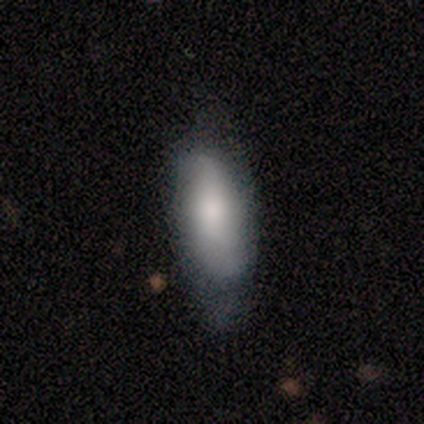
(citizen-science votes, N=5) This is clearly a smooth galaxy (80%). How rounded: possibly in between (50%, tied with cigar-shaped). Merging: marginally none (40%).